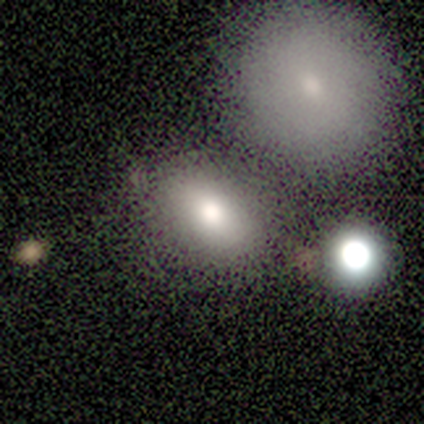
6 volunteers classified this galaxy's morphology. Overall: smooth (83%). How rounded: in between (80%). Merging: none (60%; minor disturbance 20%).